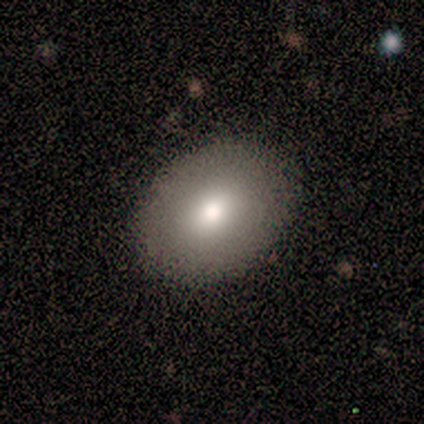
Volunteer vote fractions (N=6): This appears to be a smooth galaxy with no disk features (83%) that is in between round and cigar-shaped (60%). Merging: none (100%).